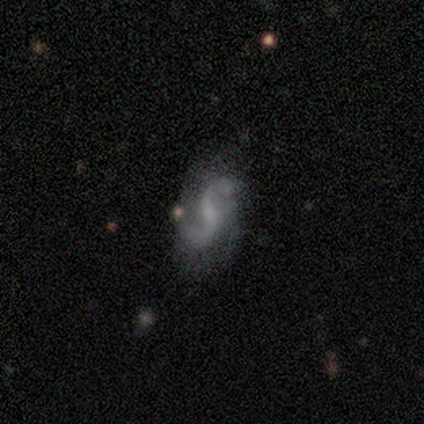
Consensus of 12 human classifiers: Q: Smooth or featured?
A: featured or disk (100%)
Q: Edge-on disk?
A: no (92%); runner-up: yes (8%)
Q: Bar?
A: no (55%); runner-up: weak (45%)
Q: Spiral arms?
A: yes (100%)
Q: Spiral winding?
A: loose (91%); runner-up: medium (9%)
Q: Spiral arm count?
A: 2 (91%); runner-up: 1 (9%)
Q: Bulge size?
A: small (55%); runner-up: none (45%)
Q: Merging?
A: none (75%); runner-up: minor disturbance (17%)